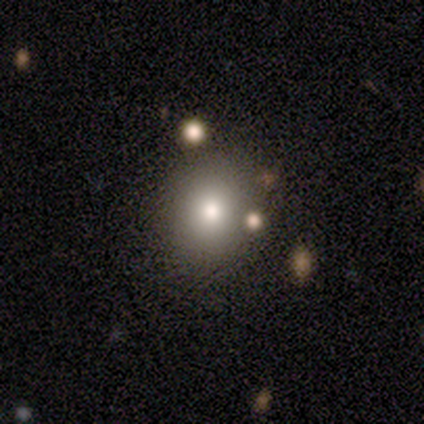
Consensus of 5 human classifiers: Smooth or featured? smooth (60%)
How rounded? round (100%)
Merging? none (100%)